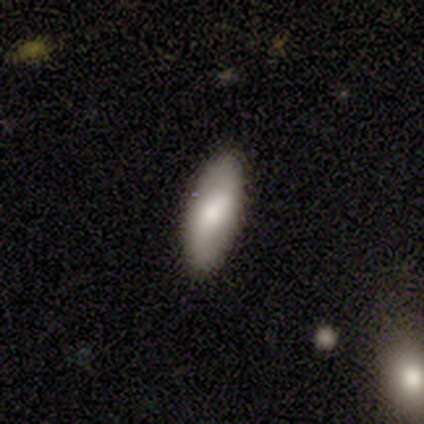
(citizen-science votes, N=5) Q: Smooth or featured?
A: smooth (60%); runner-up: featured or disk (40%)
Q: How rounded?
A: in between (100%)
Q: Merging?
A: none (100%)